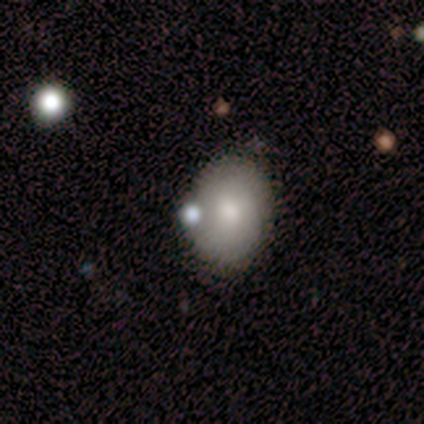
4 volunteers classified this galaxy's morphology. type=featured or disk (50%); edge-on=no (100%); bar=no (100%); spiral arms=yes (50%, tied with no); winding=loose (100%); arm count=1 (100%); bulge=moderate (100%); merging=none (67%).